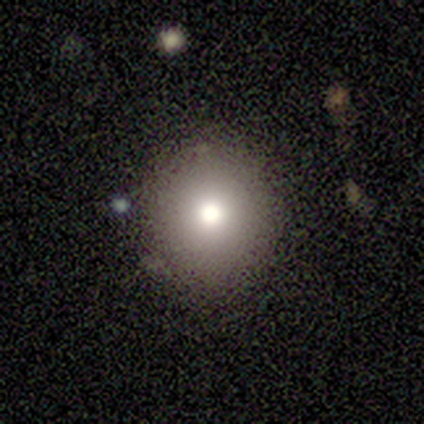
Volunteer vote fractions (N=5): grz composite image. It shows a smooth galaxy with no disk features (60%) that is in between round and cigar-shaped (67%). Merging: none (67%).